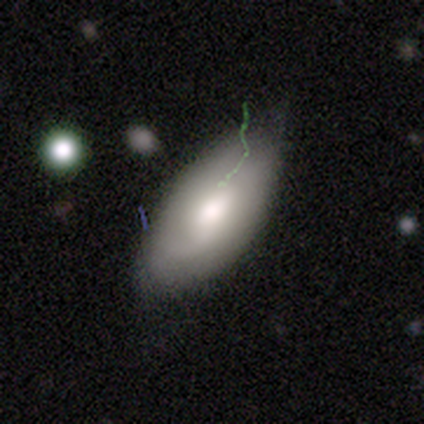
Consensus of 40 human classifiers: This is likely a smooth galaxy (65%). How rounded: clearly in between (92%). Merging: possibly minor disturbance (51%).